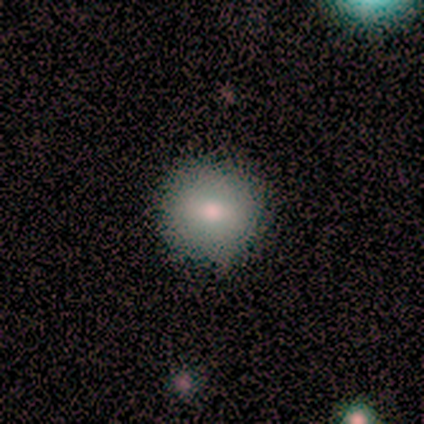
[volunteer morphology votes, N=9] type=smooth (78%); roundness=round (100%); merging=none (100%).